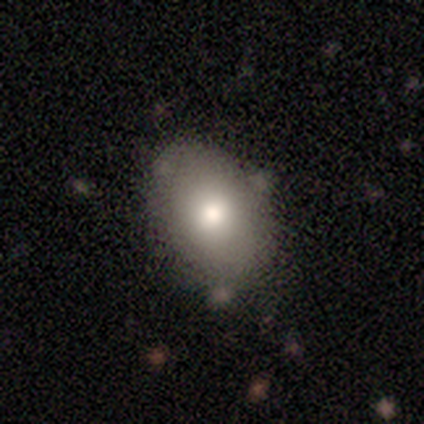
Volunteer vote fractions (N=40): Q: Smooth or featured?
A: smooth (80%); runner-up: featured or disk (15%)
Q: How rounded?
A: in between (81%); runner-up: round (19%)
Q: Merging?
A: none (47%); runner-up: minor disturbance (11%)